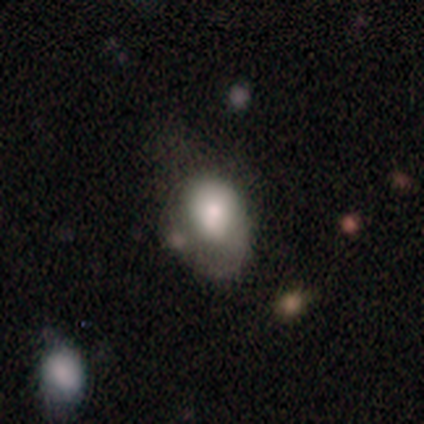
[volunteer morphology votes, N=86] Smooth or featured: smooth — 67% (featured or disk — 23%)
How rounded: in between — 78% (round — 19%)
Merging: minor disturbance — 47% (none — 28%)